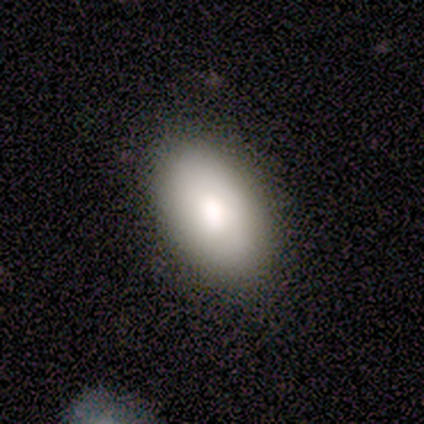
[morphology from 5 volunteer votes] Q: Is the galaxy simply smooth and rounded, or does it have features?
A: smooth — 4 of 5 (80%).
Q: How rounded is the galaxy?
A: in between — 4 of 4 (100%).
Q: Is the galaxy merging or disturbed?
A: none — 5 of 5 (100%).